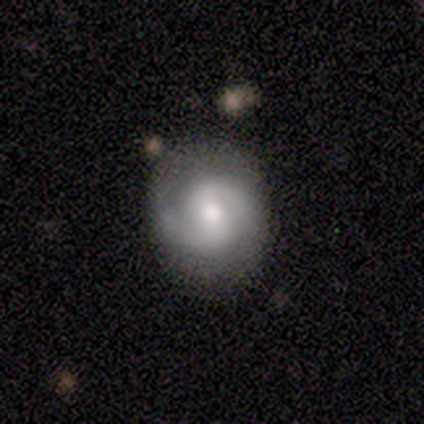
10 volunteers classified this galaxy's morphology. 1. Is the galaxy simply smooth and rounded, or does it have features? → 90% featured or disk, 10% star or artifact, 0% smooth.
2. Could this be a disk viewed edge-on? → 100% no, 0% yes.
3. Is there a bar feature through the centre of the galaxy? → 67% weak, 33% no, 0% strong.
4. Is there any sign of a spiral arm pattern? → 100% yes, 0% no.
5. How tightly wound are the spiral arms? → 56% medium, 22% tight, 22% loose.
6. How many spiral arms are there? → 89% 2, 11% can't tell, 0% 1, 0% 3, 0% 4, 0% more than 4.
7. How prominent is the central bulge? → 67% moderate, 22% small, 11% large, 0% dominant, 0% none.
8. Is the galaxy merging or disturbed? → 100% none, 0% minor disturbance, 0% major disturbance, 0% merger.